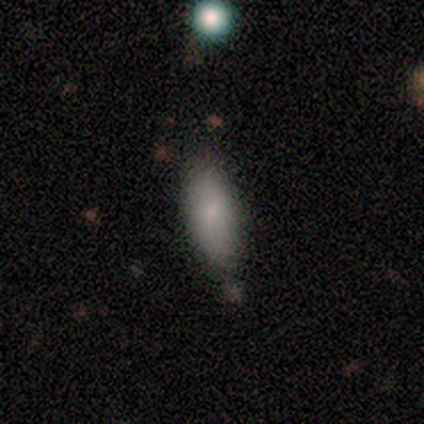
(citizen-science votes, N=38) A smooth galaxy with no disk features (89%) that is in between round and cigar-shaped (74%). Merging: none (50%).